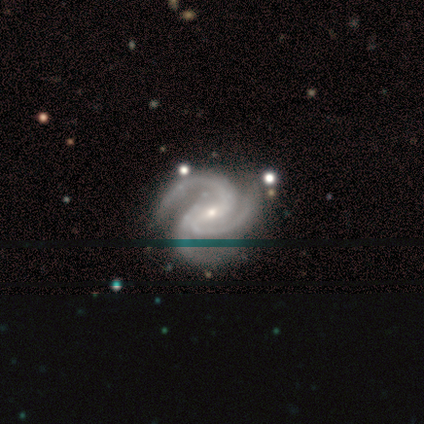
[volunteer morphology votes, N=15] smooth_or_featured: featured or disk (p=0.93) [alt: star or artifact p=0.07]
disk_edge_on: no (p=1.00)
bar: no (p=0.43) [alt: weak p=0.36]
has_spiral_arms: yes (p=1.00)
spiral_winding: medium (p=0.57) [alt: tight p=0.43]
spiral_arm_count: 3 (p=1.00)
bulge_size: small (p=0.93) [alt: moderate p=0.07]
merging: none (p=0.86) [alt: minor disturbance p=0.14]